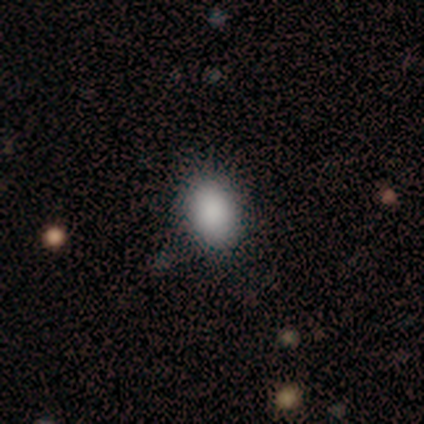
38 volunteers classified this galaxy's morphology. smooth 79%, star or artifact 16%, featured or disk 5%. Down the decision tree: how rounded — in between (80%); merging — none (78%).